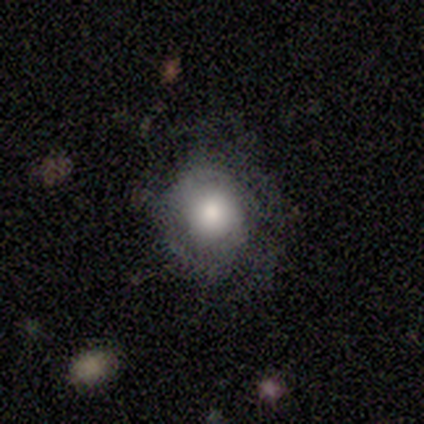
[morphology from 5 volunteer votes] Smooth or featured: featured or disk — 60% (smooth — 40%)
Edge-on disk: no — 100%
Bar: no — 100%
Spiral arms: yes — 67% (no — 33%)
Spiral winding: tight — 50% (tied with loose — 50%)
Spiral arm count: can't tell — 100%
Bulge size: dominant — 33% (tied with moderate — 33%; none — 33%)
Merging: none — 80% (minor disturbance — 20%)